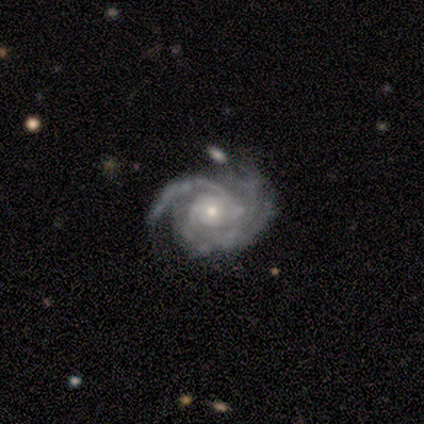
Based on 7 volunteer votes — smooth_or_featured: featured or disk (p=1.00)
disk_edge_on: no (p=1.00)
bar: no (p=0.71) [alt: weak p=0.29]
has_spiral_arms: yes (p=1.00)
spiral_winding: tight (p=0.57) [alt: loose p=0.29]
spiral_arm_count: 2 (p=0.29) [tied with: 3 p=0.29, 4 p=0.29]
bulge_size: small (p=0.57) [alt: moderate p=0.43]
merging: none (p=0.43) [alt: minor disturbance p=0.29]